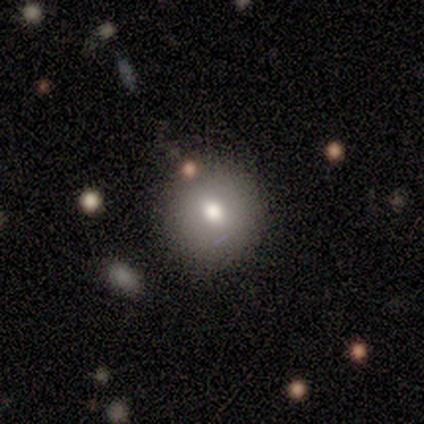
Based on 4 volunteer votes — smooth_or_featured: smooth (p=0.75) [alt: star or artifact p=0.25]
how_rounded: round (p=1.00)
merging: none (p=1.00)